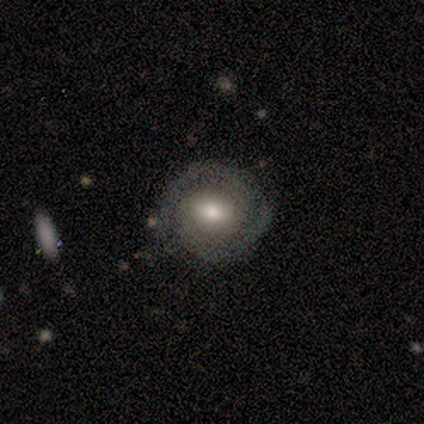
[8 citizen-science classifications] Q: Smooth or featured?
A: featured or disk (88%); runner-up: smooth (12%)
Q: Edge-on disk?
A: no (100%)
Q: Bar?
A: no (86%); runner-up: weak (14%)
Q: Spiral arms?
A: yes (86%); runner-up: no (14%)
Q: Spiral winding?
A: tight (83%); runner-up: medium (17%)
Q: Spiral arm count?
A: 2 (100%)
Q: Bulge size?
A: moderate (71%); runner-up: small (29%)
Q: Merging?
A: none (100%)